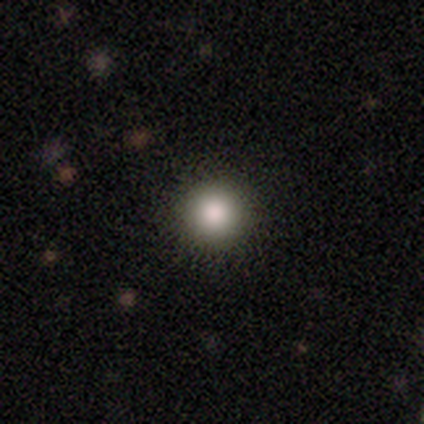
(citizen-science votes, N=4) Smooth or featured?
  - smooth: 100% *
  - featured or disk: 0%
  - star or artifact: 0%
How rounded?
  - round: 100% *
  - in between: 0%
  - cigar-shaped: 0%
Merging?
  - none: 100% *
  - minor disturbance: 0%
  - major disturbance: 0%
  - merger: 0%